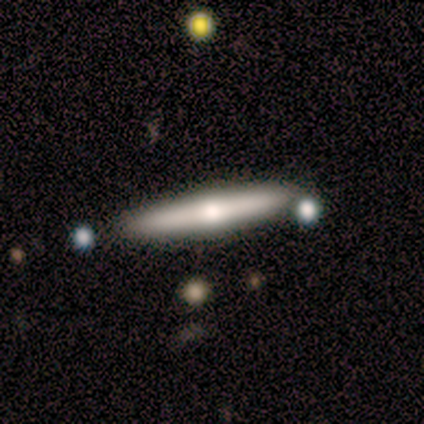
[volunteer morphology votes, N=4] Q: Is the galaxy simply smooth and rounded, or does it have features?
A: featured or disk — 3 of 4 (75%).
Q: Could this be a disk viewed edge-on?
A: yes — 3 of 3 (100%).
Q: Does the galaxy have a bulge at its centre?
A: rounded — 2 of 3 (67%).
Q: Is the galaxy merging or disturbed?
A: none — 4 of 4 (100%).